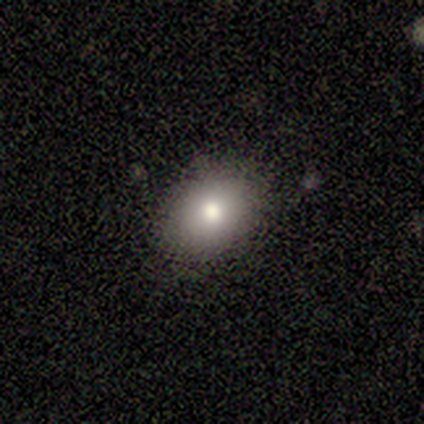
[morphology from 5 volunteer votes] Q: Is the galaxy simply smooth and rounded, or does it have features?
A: smooth — 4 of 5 (80%).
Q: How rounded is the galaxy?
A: in between — 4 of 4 (100%).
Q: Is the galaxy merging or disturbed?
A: none — 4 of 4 (100%).